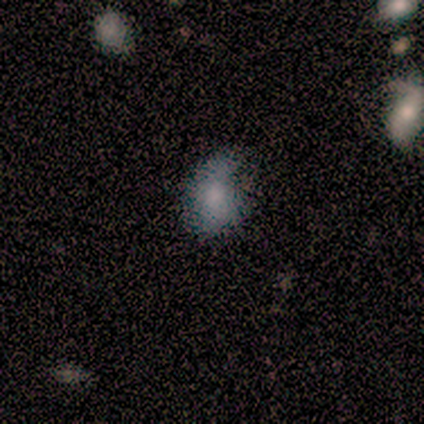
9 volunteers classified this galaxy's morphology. Volunteers were most divided on "how rounded": in between: 57%, round: 43%, cigar-shaped: 0%. More confident: smooth or featured — smooth (78%); merging — none (67%).